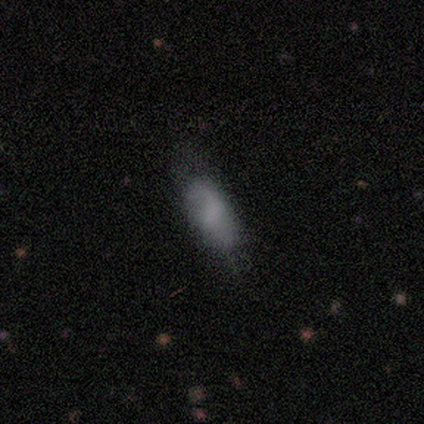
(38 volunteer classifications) A smooth galaxy with no disk features (71%) that is in between round and cigar-shaped (78%). Merging: none (29%).